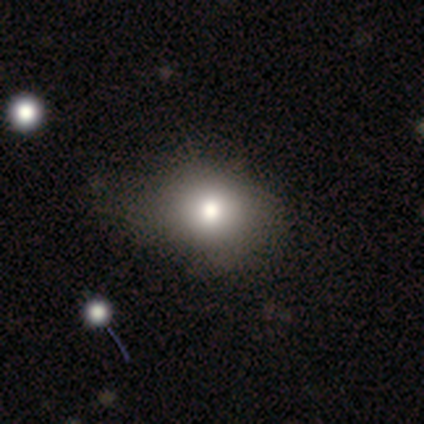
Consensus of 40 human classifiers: Smooth or featured?
  - smooth: 85% *
  - star or artifact: 12%
  - featured or disk: 2%
How rounded?
  - round: 56% *
  - in between: 44%
  - cigar-shaped: 0%
Merging?
  - none: 74% *
  - minor disturbance: 17%
  - major disturbance: 9%
  - merger: 0%